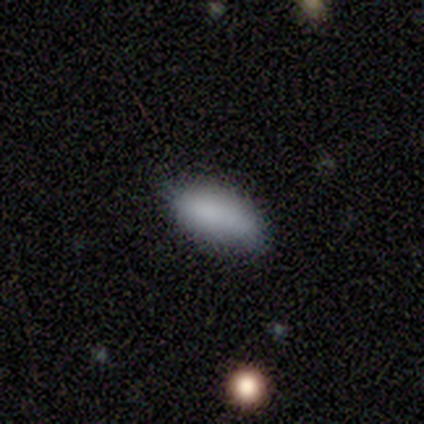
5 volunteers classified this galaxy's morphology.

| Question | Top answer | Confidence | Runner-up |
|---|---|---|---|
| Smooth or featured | smooth | 80% | star or artifact (20%) |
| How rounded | in between | 100% | — |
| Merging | none | 75% | major disturbance (25%) |